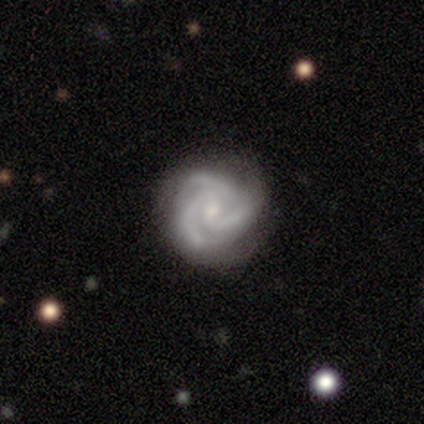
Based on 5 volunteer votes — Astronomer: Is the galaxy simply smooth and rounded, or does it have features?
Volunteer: featured or disk — 80%.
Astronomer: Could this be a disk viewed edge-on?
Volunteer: no — 100%.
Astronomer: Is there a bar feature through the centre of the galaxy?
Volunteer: no — 100%.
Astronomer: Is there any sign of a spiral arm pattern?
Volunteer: yes — 100%.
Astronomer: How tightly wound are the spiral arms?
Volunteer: tight — 50%, tied with medium at 50%.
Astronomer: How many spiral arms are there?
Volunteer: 3 — 50%.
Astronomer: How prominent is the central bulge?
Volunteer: small — 100%.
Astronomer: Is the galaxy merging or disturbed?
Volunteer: none — 100%.